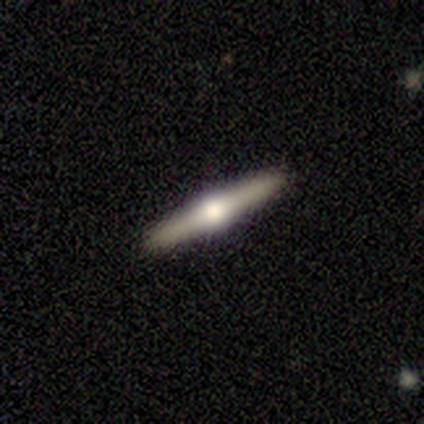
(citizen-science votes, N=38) This appears to be a featured or disk galaxy (87%) viewed edge-on (100%) with a rounded central bulge (94%). Merging: none (92%).